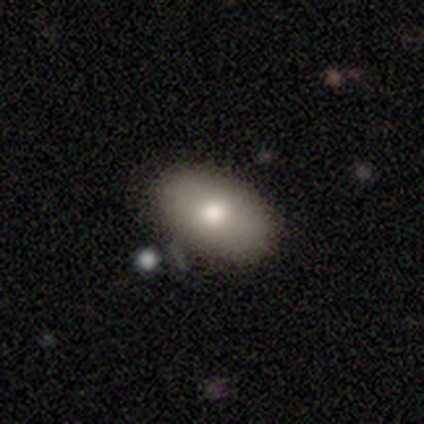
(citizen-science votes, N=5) Smooth or featured? smooth (80%)
How rounded? in between (100%)
Merging? none (100%)